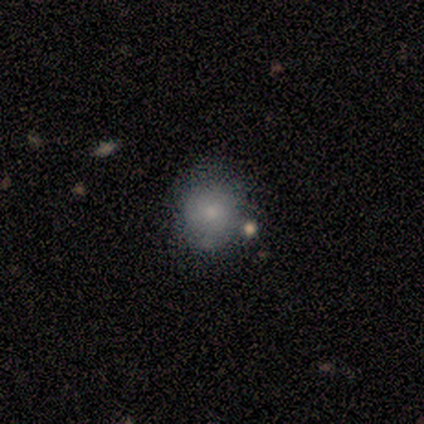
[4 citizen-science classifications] This appears to be a smooth galaxy with no disk features (75%) that is round (67%). Merging: none (67%).